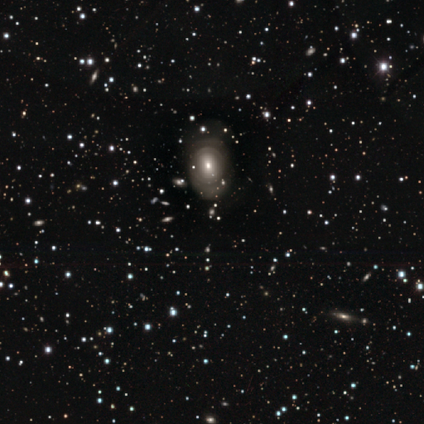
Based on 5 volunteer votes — Smooth or featured: featured or disk — 80% (smooth — 20%)
Edge-on disk: no — 75% (yes — 25%)
Bar: no — 100%
Spiral arms: no — 67% (yes — 33%)
Bulge size: small — 67% (moderate — 33%)
Merging: none — 100%